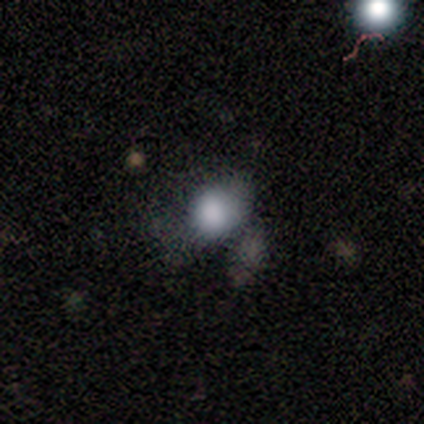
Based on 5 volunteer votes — This is clearly a smooth galaxy (80%). How rounded: possibly round (50%, tied with in between). Merging: likely minor disturbance (60%).